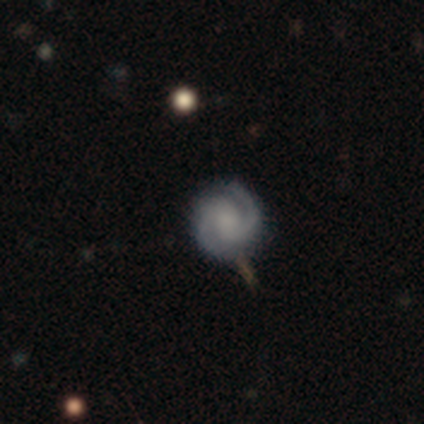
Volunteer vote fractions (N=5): Smooth or featured: featured or disk — 40% (tied with star or artifact — 40%)
Edge-on disk: no — 100%
Bar: no — 100%
Spiral arms: yes — 100%
Spiral winding: tight — 50% (tied with loose — 50%)
Spiral arm count: 1 — 50% (tied with 2 — 50%)
Bulge size: none — 100%
Merging: minor disturbance — 67% (none — 33%)